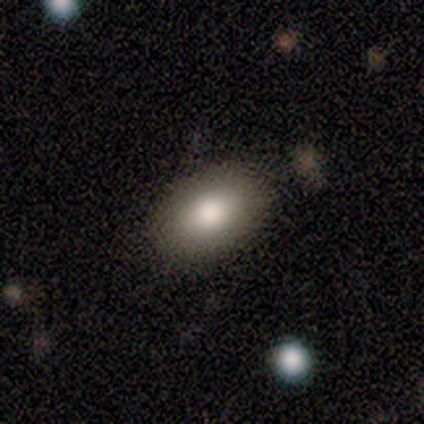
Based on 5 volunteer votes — Overall: smooth (100%). How rounded: in between (100%). Merging: none (100%).